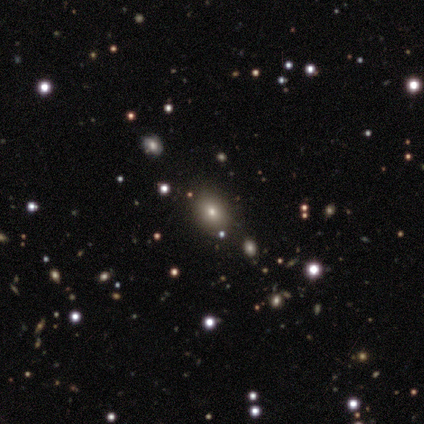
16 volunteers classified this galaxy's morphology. Q: Smooth or featured?
A: smooth (50%); runner-up: star or artifact (31%)
Q: How rounded?
A: in between (75%); runner-up: round (25%)
Q: Merging?
A: none (82%); runner-up: minor disturbance (9%)